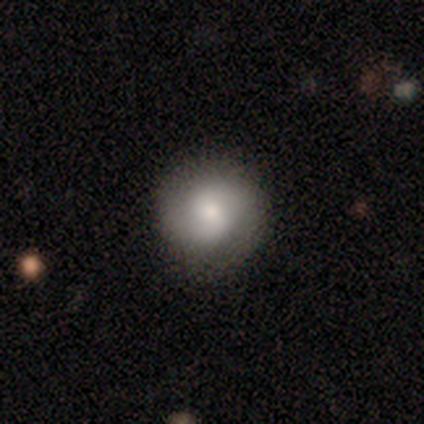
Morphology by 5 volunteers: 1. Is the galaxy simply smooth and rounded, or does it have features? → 60% smooth, 40% featured or disk, 0% star or artifact.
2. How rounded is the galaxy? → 100% round, 0% in between, 0% cigar-shaped.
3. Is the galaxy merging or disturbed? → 80% none, 20% minor disturbance, 0% major disturbance, 0% merger.